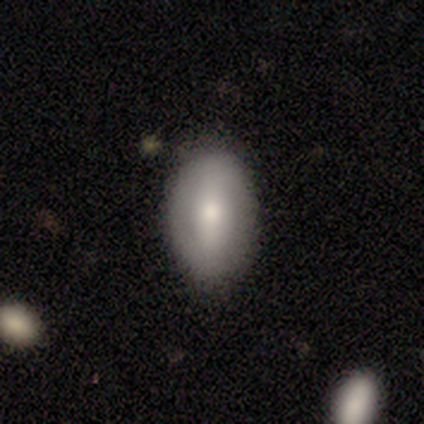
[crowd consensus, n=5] Smooth or featured: featured or disk — 60% (smooth — 40%)
Edge-on disk: no — 100%
Bar: weak — 100%
Spiral arms: no — 100%
Bulge size: moderate — 67% (small — 33%)
Merging: none — 60% (minor disturbance — 40%)